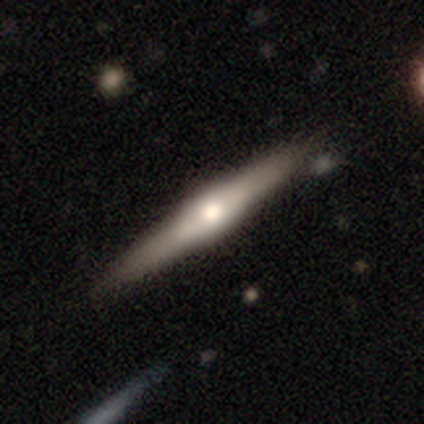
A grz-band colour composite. It shows a featured or disk galaxy (80%) viewed edge-on (100%) with a rounded central bulge (75%). Merging: none (75%).